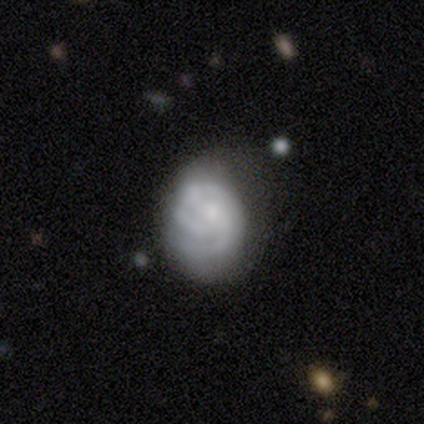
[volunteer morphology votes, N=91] Smooth or featured? featured or disk (66%)
Edge-on disk? no (95%)
Bar? no (70%)
Spiral arms? yes (82%)
Spiral winding? tight (70%)
Spiral arm count? 2 (40%)
Bulge size? small (68%)
Merging? none (41%)